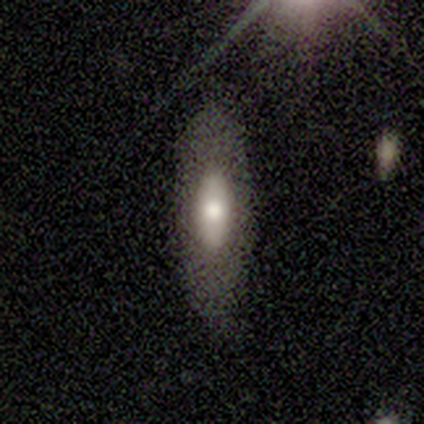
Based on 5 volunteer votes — Q: Smooth or featured?
A: smooth (60%); runner-up: featured or disk (40%)
Q: How rounded?
A: in between (100%)
Q: Merging?
A: none (100%)